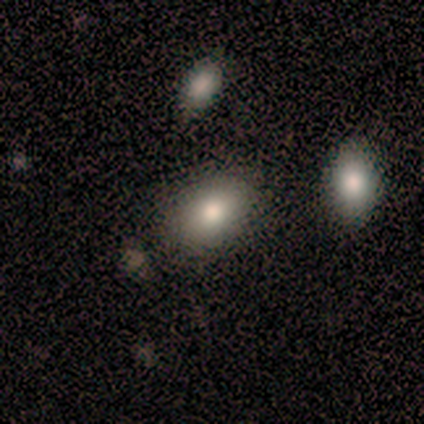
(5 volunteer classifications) This appears to be a smooth galaxy with no disk features (80%) that is in between round and cigar-shaped (75%). Merging: none (100%).